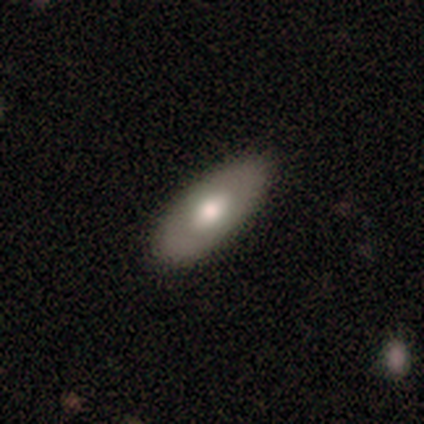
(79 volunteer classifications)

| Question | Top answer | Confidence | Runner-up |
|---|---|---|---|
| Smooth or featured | smooth | 65% | featured or disk (34%) |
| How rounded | in between | 92% | cigar-shaped (8%) |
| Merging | none | 45% | minor disturbance (5%) |